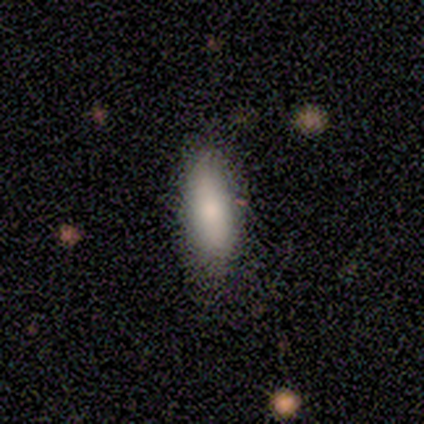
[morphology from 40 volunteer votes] Smooth or featured? 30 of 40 (75%) said smooth. How rounded? 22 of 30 (73%) said in between. Merging? 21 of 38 (55%) said none.